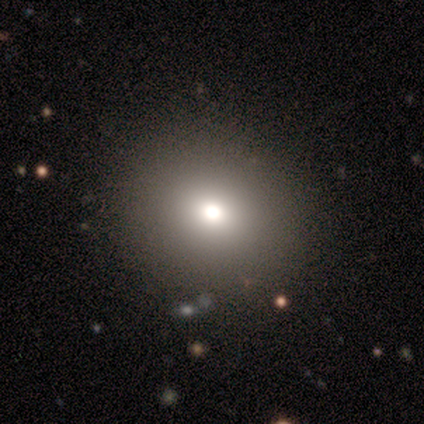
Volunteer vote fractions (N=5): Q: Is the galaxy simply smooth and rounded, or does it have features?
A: smooth — 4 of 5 (80%).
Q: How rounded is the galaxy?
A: round — 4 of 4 (100%).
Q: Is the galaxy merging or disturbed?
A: none — 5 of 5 (100%).